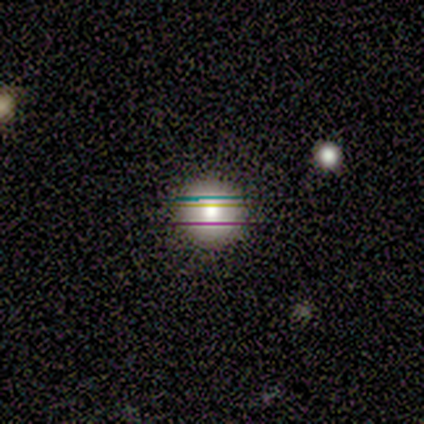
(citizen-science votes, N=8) This is possibly a smooth galaxy (50%). How rounded: clearly round (100%). Merging: clearly none (100%).